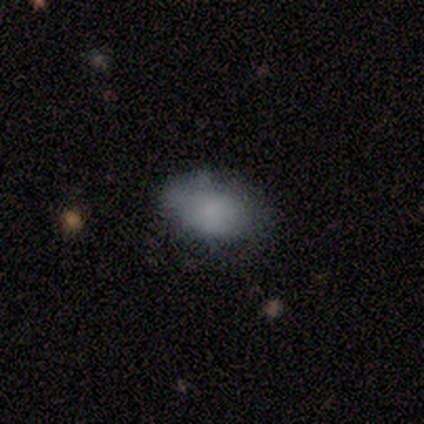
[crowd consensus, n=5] Volunteers were most divided on "smooth or featured": smooth: 80%, featured or disk: 20%, star or artifact: 0%. More confident: how rounded — in between (100%); merging — none (80%).